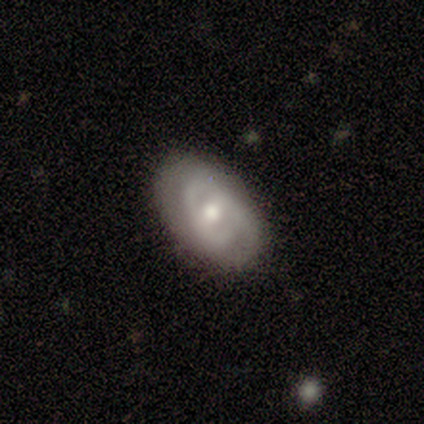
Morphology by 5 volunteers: This is clearly a featured or disk galaxy (80%). It is possibly viewed edge-on (50%, tied with no). Edge-on bulge: clearly rounded (100%). Merging: clearly none (80%).